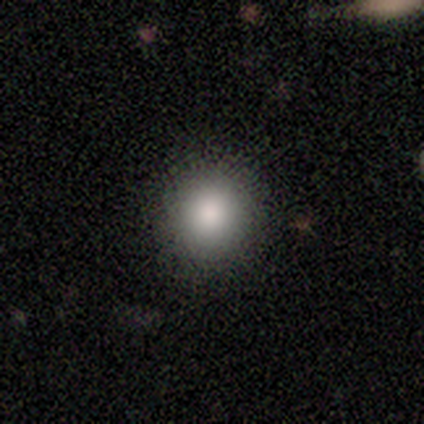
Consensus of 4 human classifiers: Overall: smooth (75%). How rounded: round (100%). Merging: none (67%; major disturbance 33%).